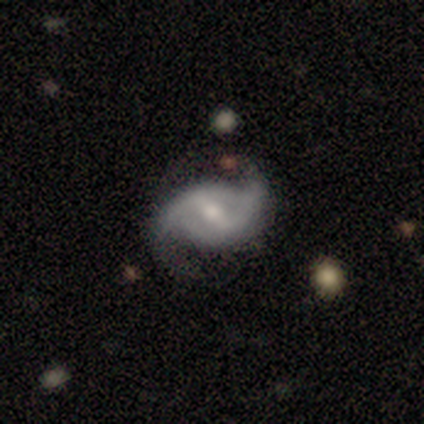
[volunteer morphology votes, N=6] Overall: featured or disk (100%). Edge-on disk: no (100%). Bar: weak (67%; strong 33%). Spiral arms: yes (100%). Spiral arm count: 2 (100%). Spiral winding: loose (83%). Bulge size: moderate (50%; small 33%). Merging: minor disturbance (67%; none 33%).